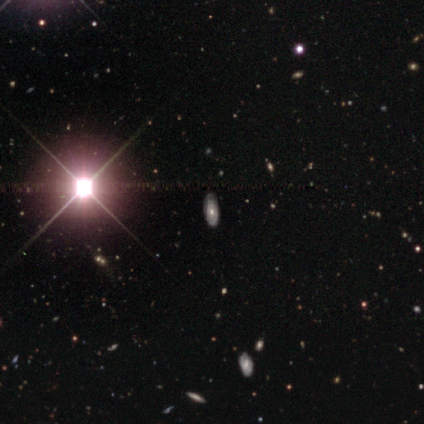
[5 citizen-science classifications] Smooth or featured? 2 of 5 (40%, tied with star or artifact) said featured or disk. Edge-on disk? 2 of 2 (100%) said no. Bar? 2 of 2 (100%) said no. Spiral arms? 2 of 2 (100%) said yes. Spiral winding? 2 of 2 (100%) said tight. Spiral arm count? 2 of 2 (100%) said can't tell. Bulge size? 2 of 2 (100%) said small. Merging? 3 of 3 (100%) said none.